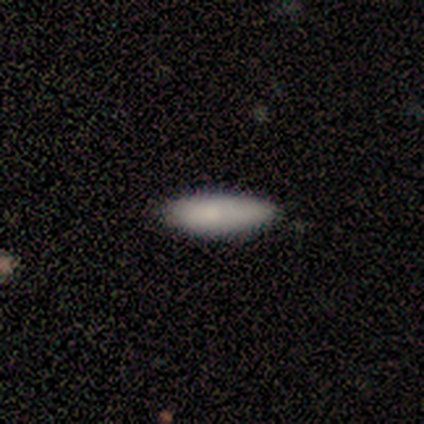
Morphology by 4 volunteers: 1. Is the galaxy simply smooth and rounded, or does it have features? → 100% smooth, 0% featured or disk, 0% star or artifact.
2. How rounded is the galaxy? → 100% in between, 0% round, 0% cigar-shaped.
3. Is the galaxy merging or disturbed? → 75% none, 25% minor disturbance, 0% major disturbance, 0% merger.